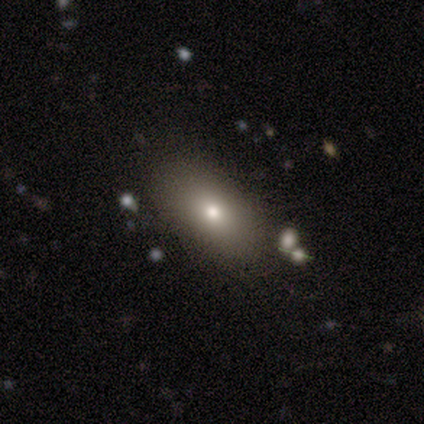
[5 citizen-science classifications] Volunteers were most divided on "smooth or featured": smooth: 80%, featured or disk: 20%, star or artifact: 0%. More confident: how rounded — in between (100%); merging — none (80%).